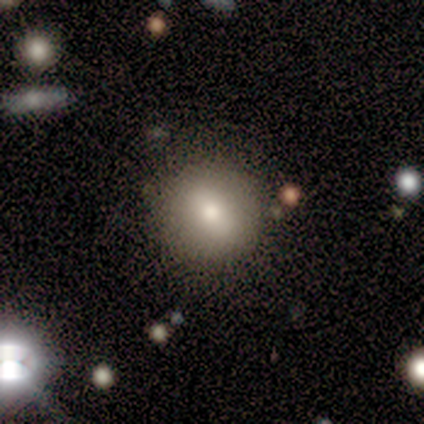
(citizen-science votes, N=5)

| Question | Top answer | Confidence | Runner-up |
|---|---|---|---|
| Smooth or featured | smooth | 100% | — |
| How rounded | round | 100% | — |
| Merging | none | 60% | minor disturbance (40%) |